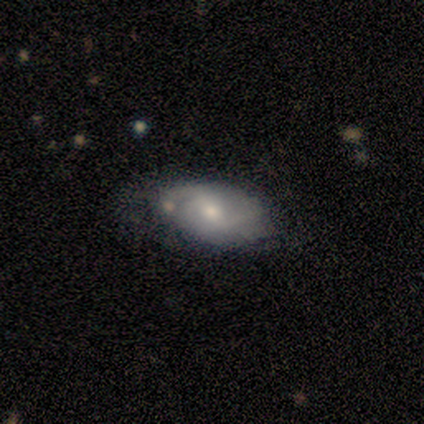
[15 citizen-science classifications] A featured or disk galaxy (60%) with a weak bar (62%), 2 (50%) medium (83%) spiral arms (75%) and a moderate central bulge (62%).

Vote fractions:
- Smooth or featured? featured or disk: 60% / smooth: 40% / star or artifact: 0%
- Edge-on disk? no: 89% / yes: 11%
- Bar? weak: 62% / no: 38% / strong: 0%
- Spiral arms? yes: 75% / no: 25%
- Spiral winding? medium: 83% / tight: 17% / loose: 0%
- Spiral arm count? 2: 50% / can't tell: 33% / 3: 17% / 1: 0% / 4: 0% / more than 4: 0%
- Bulge size? moderate: 62% / small: 38% / dominant: 0% / large: 0% / none: 0%
- Merging? none: 67% / minor disturbance: 20% / merger: 13% / major disturbance: 0%